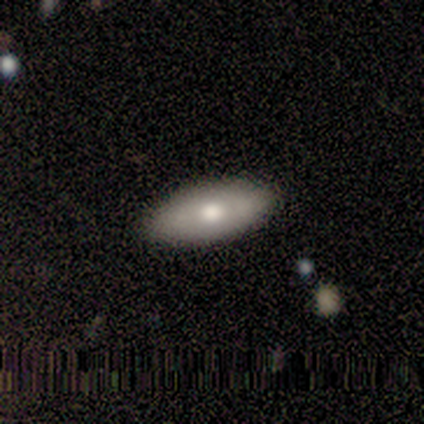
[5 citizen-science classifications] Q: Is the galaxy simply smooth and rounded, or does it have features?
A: smooth — 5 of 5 (100%).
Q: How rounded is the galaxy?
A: in between — 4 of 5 (80%).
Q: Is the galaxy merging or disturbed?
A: none — 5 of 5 (100%).